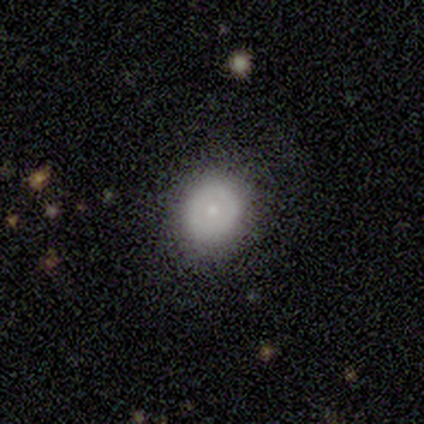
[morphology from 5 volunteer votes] Overall: smooth (80%). How rounded: round (75%). Merging: none (75%).